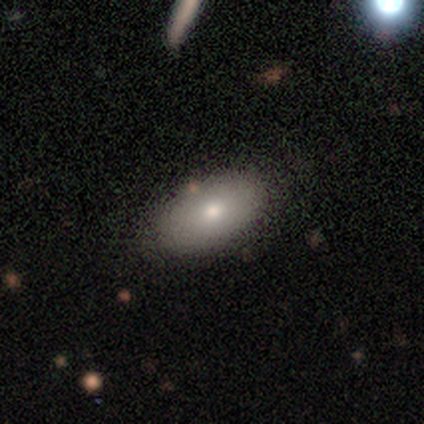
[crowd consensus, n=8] Smooth or featured?
  - smooth: 75% *
  - featured or disk: 12%
  - star or artifact: 12%
How rounded?
  - in between: 100% *
  - round: 0%
  - cigar-shaped: 0%
Merging?
  - none: 86% *
  - minor disturbance: 14%
  - major disturbance: 0%
  - merger: 0%